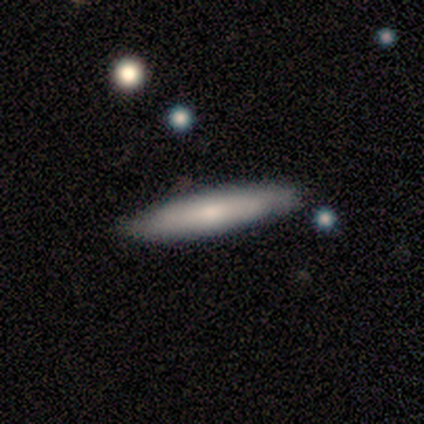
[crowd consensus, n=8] A smooth galaxy with no disk features (50%) that is cigar-shaped (100%).

Vote fractions:
- Smooth or featured? smooth: 50% / featured or disk: 38% / star or artifact: 12%
- How rounded? cigar-shaped: 100% / round: 0% / in between: 0%
- Merging? none: 86% / major disturbance: 14% / minor disturbance: 0% / merger: 0%